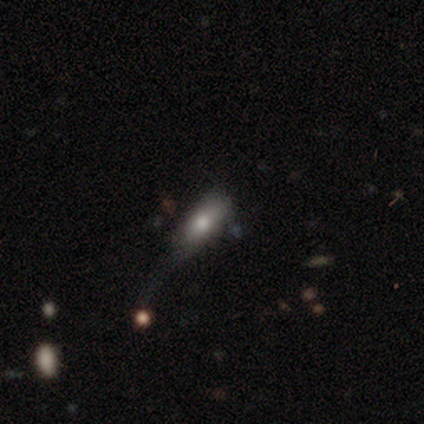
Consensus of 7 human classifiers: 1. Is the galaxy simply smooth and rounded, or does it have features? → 86% smooth, 14% featured or disk, 0% star or artifact.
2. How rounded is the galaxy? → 100% in between, 0% round, 0% cigar-shaped.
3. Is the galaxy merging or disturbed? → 57% minor disturbance, 29% major disturbance, 14% merger, 0% none.